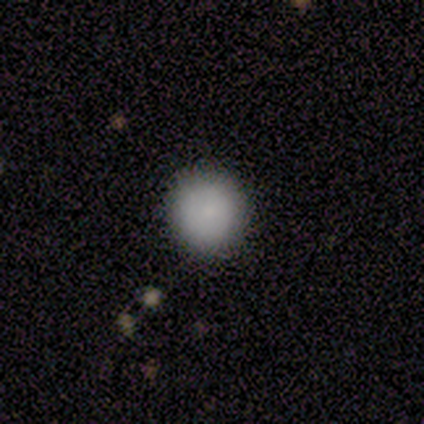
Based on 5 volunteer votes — Smooth or featured: smooth — 100%
How rounded: round — 100%
Merging: none — 100%